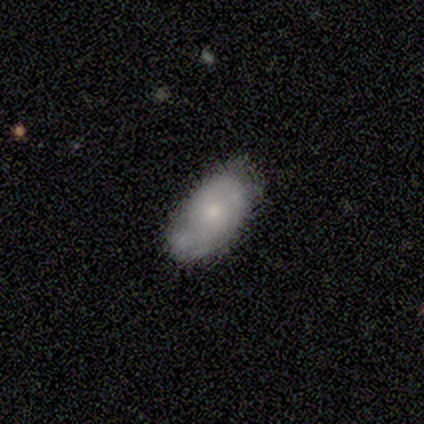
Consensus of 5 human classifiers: Smooth or featured?
  - smooth: 60% *
  - featured or disk: 40%
  - star or artifact: 0%
How rounded?
  - in between: 100% *
  - round: 0%
  - cigar-shaped: 0%
Merging?
  - none: 80% *
  - minor disturbance: 20%
  - major disturbance: 0%
  - merger: 0%